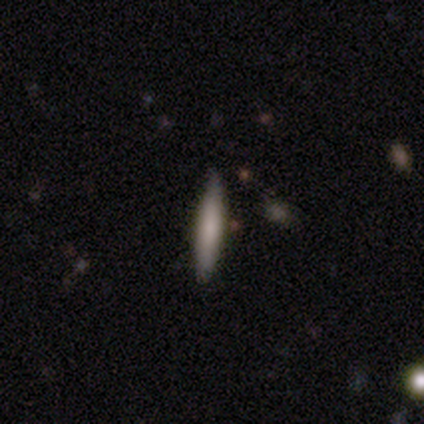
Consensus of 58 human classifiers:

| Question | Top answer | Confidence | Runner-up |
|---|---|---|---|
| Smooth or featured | smooth | 78% | featured or disk (21%) |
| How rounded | cigar-shaped | 89% | in between (11%) |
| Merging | none | 84% | minor disturbance (16%) |